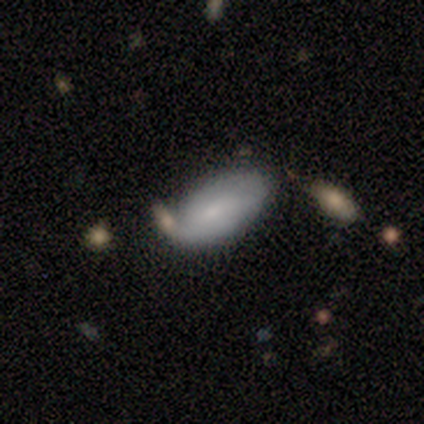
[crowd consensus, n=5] Smooth or featured?
  - smooth: 80% *
  - featured or disk: 20%
  - star or artifact: 0%
How rounded?
  - in between: 100% *
  - round: 0%
  - cigar-shaped: 0%
Merging?
  - none: 60% *
  - minor disturbance: 20%
  - merger: 20%
  - major disturbance: 0%